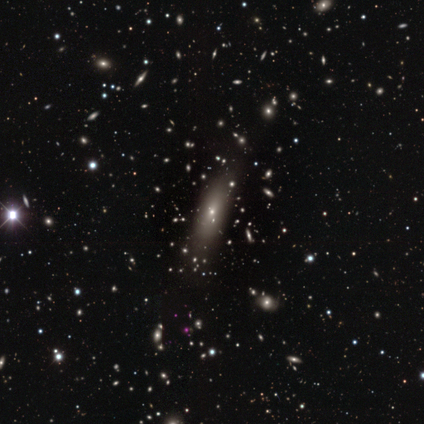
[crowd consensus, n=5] Smooth or featured? featured or disk (60%)
Edge-on disk? no (67%)
Bar? no (100%)
Spiral arms? no (100%)
Bulge size? moderate (50%, tied with small)
Merging? none (100%)